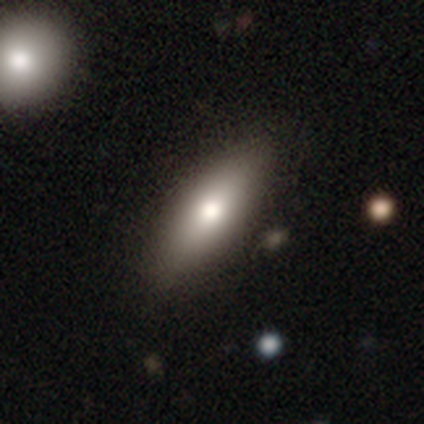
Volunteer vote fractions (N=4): smooth 100%, featured or disk 0%, star or artifact 0%. Down the decision tree: how rounded — in between (75%); merging — none (100%).